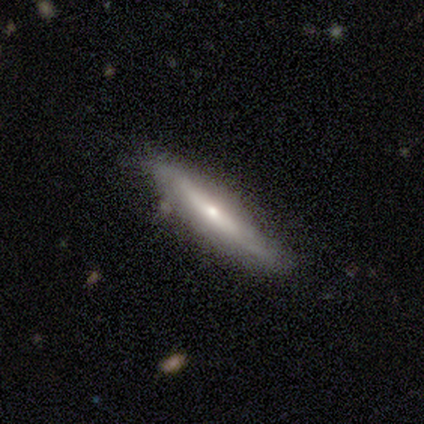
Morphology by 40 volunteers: A featured or disk galaxy (65%) viewed edge-on (77%) with a rounded central bulge (80%).

Vote fractions:
- Smooth or featured? featured or disk: 65% / smooth: 32% / star or artifact: 2%
- Edge-on disk? yes: 77% / no: 23%
- Edge-on bulge? rounded: 80% / none: 15% / boxy: 5%
- Merging? none: 79% / minor disturbance: 21% / major disturbance: 0% / merger: 0%